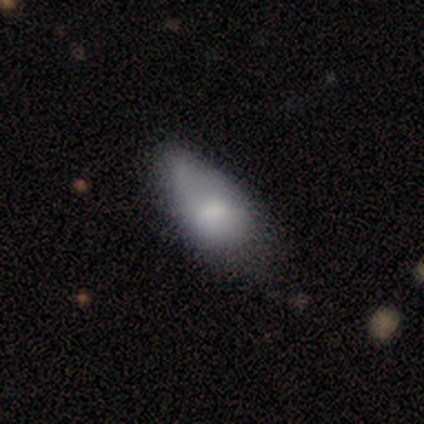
Smooth or featured? 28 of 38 (74%) said smooth. How rounded? 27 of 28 (96%) said in between. Merging? 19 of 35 (54%) said minor disturbance.